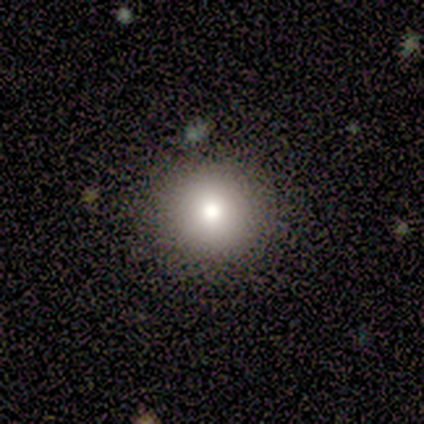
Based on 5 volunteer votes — This is clearly a smooth galaxy (80%). How rounded: clearly round (100%). Merging: clearly none (80%).